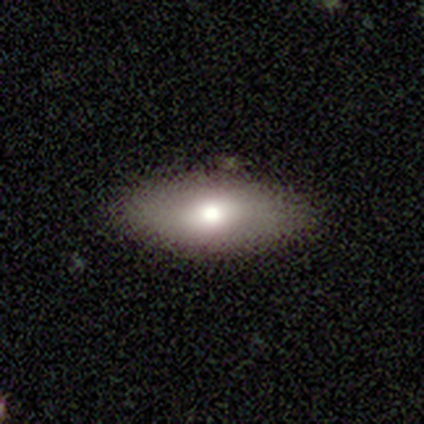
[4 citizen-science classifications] smooth 50% (tied), featured or disk 50% (tied), star or artifact 0%. Down the decision tree: how rounded — in between (100%); merging — none (100%).